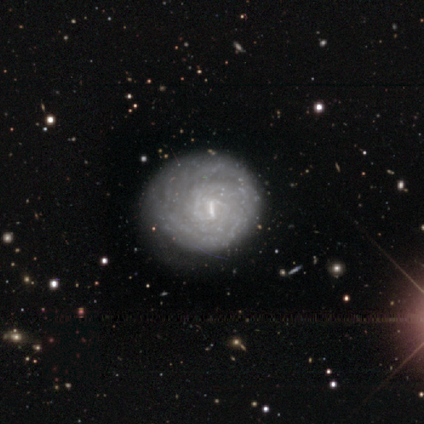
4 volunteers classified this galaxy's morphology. A featured or disk galaxy (75%) with a weak bar (100%), tight (50%, tied with loose) spiral arms (67%) and a small central bulge (67%). Merging: none (75%).